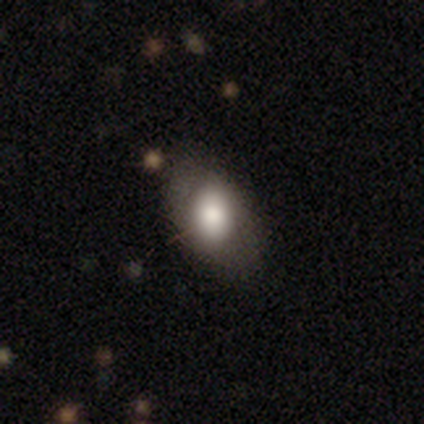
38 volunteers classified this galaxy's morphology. A smooth galaxy with no disk features (61%) that is in between round and cigar-shaped (78%). Merging: none (74%).